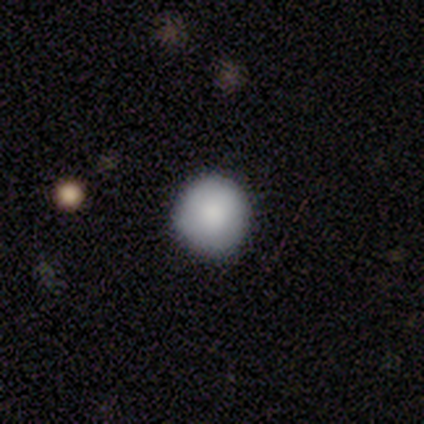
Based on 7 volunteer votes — Smooth or featured?
  - smooth: 86% *
  - star or artifact: 14%
  - featured or disk: 0%
How rounded?
  - round: 100% *
  - in between: 0%
  - cigar-shaped: 0%
Merging?
  - none: 100% *
  - minor disturbance: 0%
  - major disturbance: 0%
  - merger: 0%